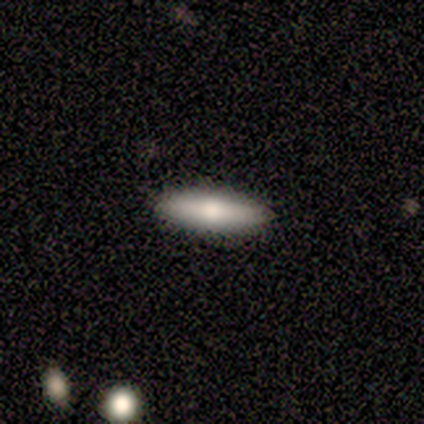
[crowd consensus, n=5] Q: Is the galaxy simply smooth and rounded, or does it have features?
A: smooth — 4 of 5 (80%).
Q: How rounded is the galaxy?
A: in between — 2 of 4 (50%, tied with cigar-shaped).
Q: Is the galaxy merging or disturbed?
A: none — 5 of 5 (100%).